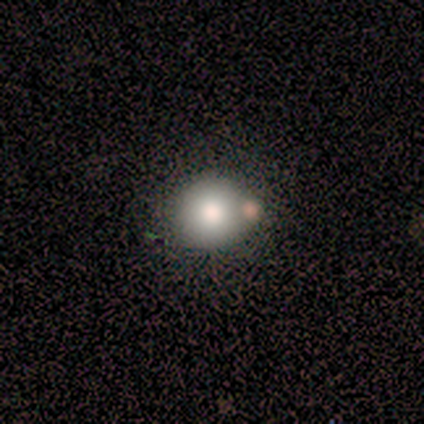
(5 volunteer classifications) Smooth or featured? 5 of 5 (100%) said smooth. How rounded? 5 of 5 (100%) said round. Merging? 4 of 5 (80%) said none.